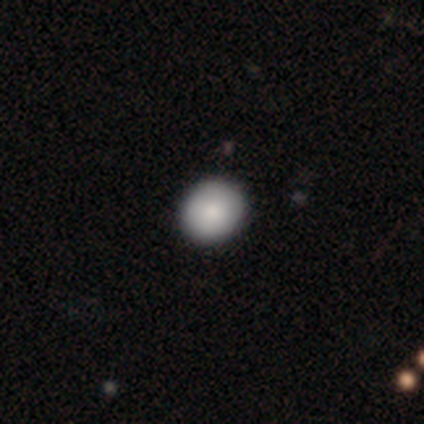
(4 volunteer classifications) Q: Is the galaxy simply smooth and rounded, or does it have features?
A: smooth — 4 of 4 (100%).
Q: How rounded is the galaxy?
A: round — 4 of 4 (100%).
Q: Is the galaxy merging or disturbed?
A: none — 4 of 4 (100%).